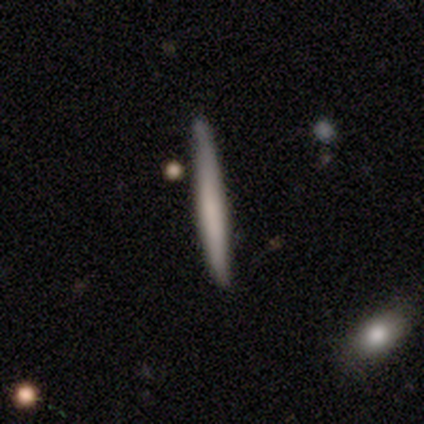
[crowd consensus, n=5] This appears to be a smooth galaxy with no disk features (60%) that is cigar-shaped (100%). Merging: none (60%).